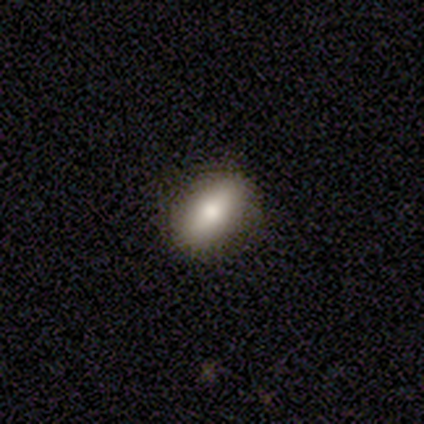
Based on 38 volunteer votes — This appears to be a smooth galaxy with no disk features (76%) that is in between round and cigar-shaped (90%). Merging: none (91%).